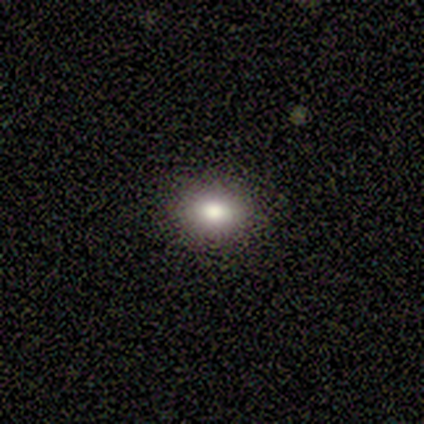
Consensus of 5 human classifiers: Overall: smooth (80%). How rounded: in between (100%). Merging: none (60%; minor disturbance 40%).